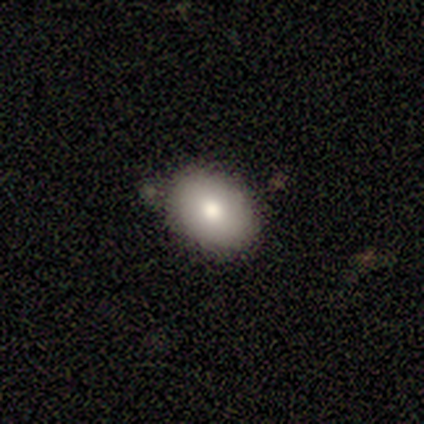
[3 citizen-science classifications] Q: Smooth or featured?
A: smooth (100%)
Q: How rounded?
A: in between (100%)
Q: Merging?
A: none (100%)